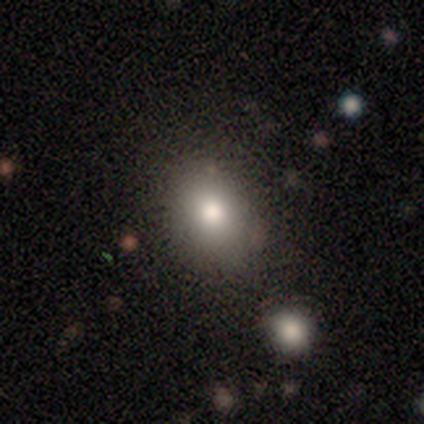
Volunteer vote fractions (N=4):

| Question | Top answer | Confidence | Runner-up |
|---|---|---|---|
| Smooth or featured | smooth | 50% | featured or disk (25%) |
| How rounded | in between | 100% | — |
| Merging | none | 100% | — |